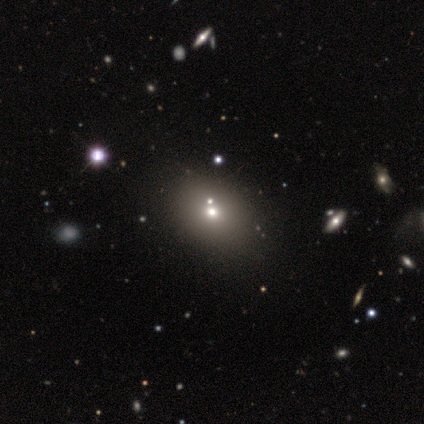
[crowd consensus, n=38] Smooth or featured? smooth (63%)
How rounded? in between (62%)
Merging? none (77%)